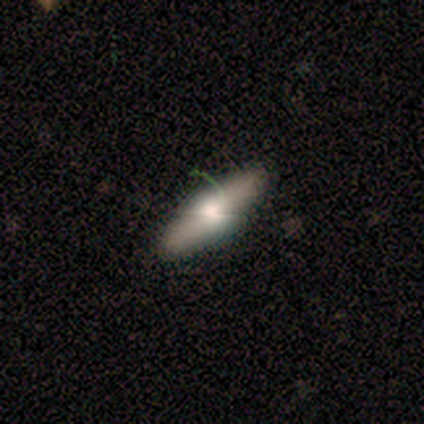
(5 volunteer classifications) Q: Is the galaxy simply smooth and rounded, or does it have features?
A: smooth — 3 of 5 (60%).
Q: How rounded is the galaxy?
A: cigar-shaped — 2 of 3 (67%).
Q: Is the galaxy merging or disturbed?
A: none — 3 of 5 (60%).